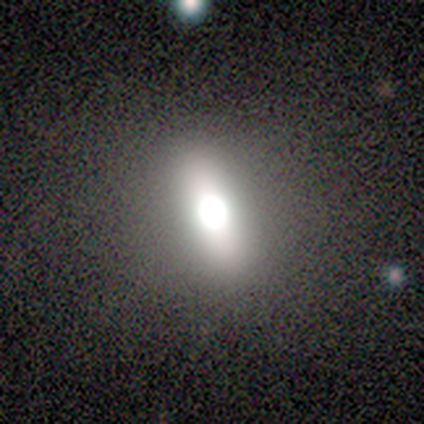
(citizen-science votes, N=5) A star or artifact, not a galaxy (60%).